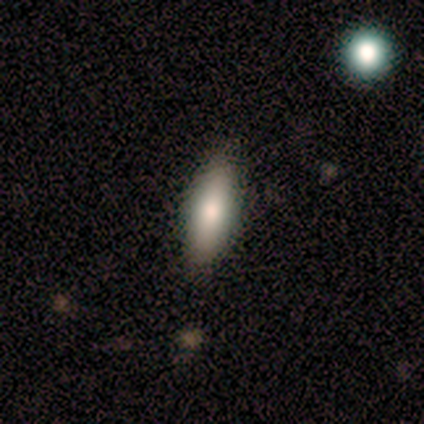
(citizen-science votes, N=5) Overall: smooth (100%). How rounded: in between (60%; cigar-shaped 40%). Merging: none (100%).